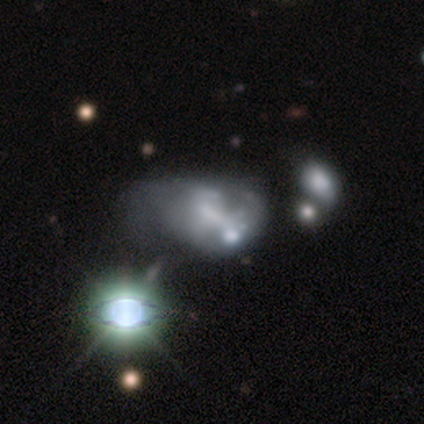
This appears to be a featured or disk galaxy (51%) with no bar (67%), no spiral arms (76%) and no central bulge (43%). Merging: merger (41%).